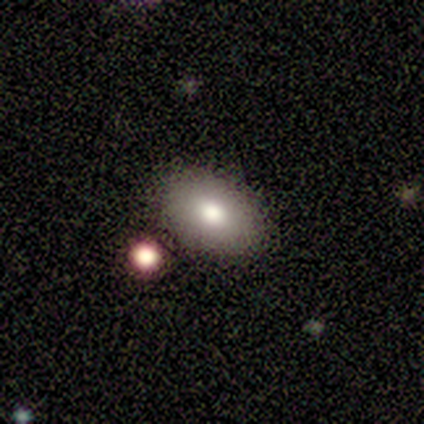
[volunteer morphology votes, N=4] smooth_or_featured: smooth (p=1.00)
how_rounded: in between (p=0.75) [alt: round p=0.25]
merging: none (p=1.00)